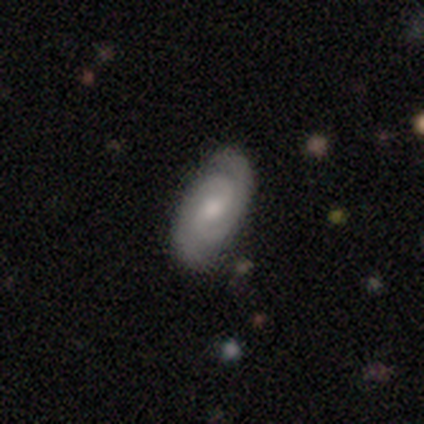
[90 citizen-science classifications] Smooth or featured? 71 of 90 (79%) said featured or disk. Edge-on disk? 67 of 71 (94%) said no. Bar? 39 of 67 (58%) said weak. Spiral arms? 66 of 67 (99%) said yes. Spiral winding? 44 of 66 (67%) said tight. Spiral arm count? 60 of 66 (91%) said 2. Bulge size? 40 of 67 (60%) said moderate. Merging? 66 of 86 (77%) said none.